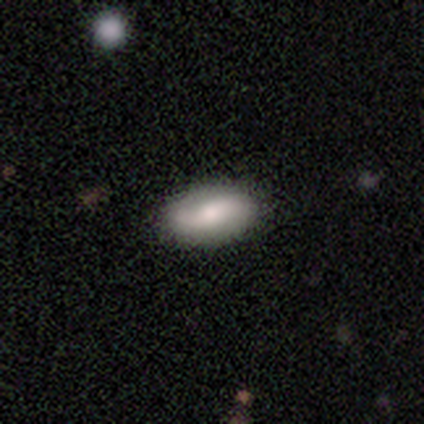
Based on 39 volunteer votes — Overall: smooth (67%; featured or disk 28%). How rounded: in between (96%). Merging: none (86%).